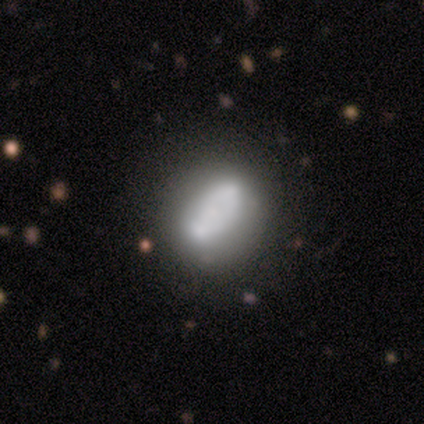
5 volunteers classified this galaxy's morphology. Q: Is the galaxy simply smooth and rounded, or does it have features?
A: featured or disk — 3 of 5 (60%).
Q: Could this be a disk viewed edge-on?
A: no — 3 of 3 (100%).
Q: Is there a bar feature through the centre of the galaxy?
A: no — 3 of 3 (100%).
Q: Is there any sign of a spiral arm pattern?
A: no — 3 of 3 (100%).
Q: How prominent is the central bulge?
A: moderate — 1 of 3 (33%, tied with small and none).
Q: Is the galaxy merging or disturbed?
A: none — 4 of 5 (80%).